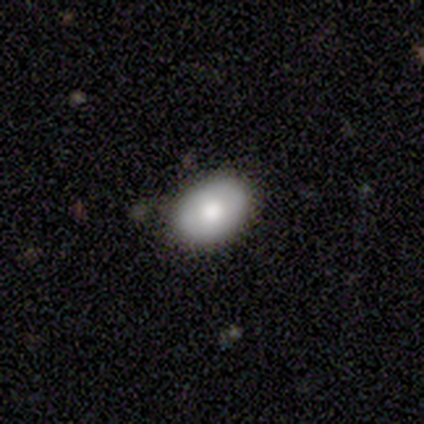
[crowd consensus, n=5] smooth 60%, featured or disk 40%, star or artifact 0%. Down the decision tree: how rounded — in between (67%); merging — none (100%).